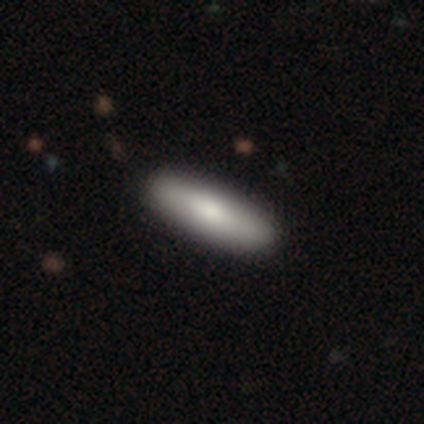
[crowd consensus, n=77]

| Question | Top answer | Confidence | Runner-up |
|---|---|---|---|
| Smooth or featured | smooth | 75% | featured or disk (18%) |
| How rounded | cigar-shaped | 60% | in between (40%) |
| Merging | none | 51% | merger (1%) |